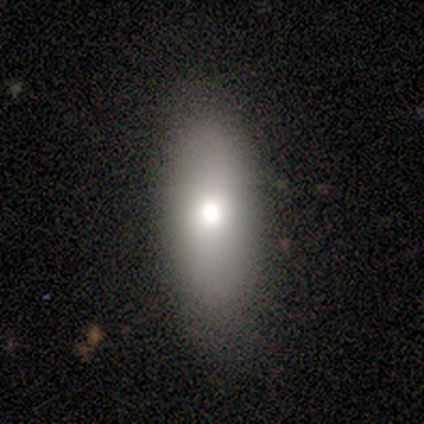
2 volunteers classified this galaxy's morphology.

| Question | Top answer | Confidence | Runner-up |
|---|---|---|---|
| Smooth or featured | smooth | 100% | — |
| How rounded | in between | 100% | — |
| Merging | none | 100% | — |